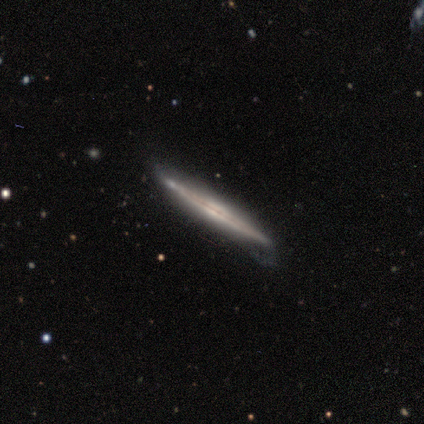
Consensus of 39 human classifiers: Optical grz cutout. It shows a featured or disk galaxy (90%) viewed edge-on (94%) with no central bulge (42%). Merging: none (74%).